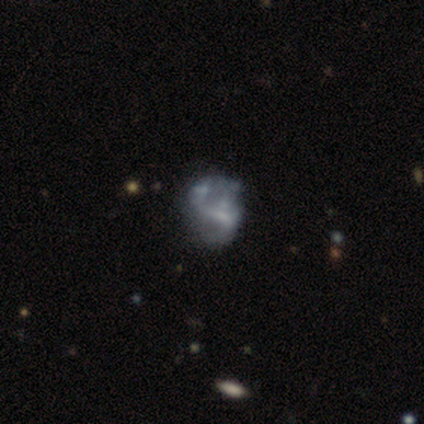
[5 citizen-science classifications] Smooth or featured: smooth — 40% (tied with featured or disk — 40%)
How rounded: round — 50% (tied with in between — 50%)
Merging: none — 75% (minor disturbance — 25%)